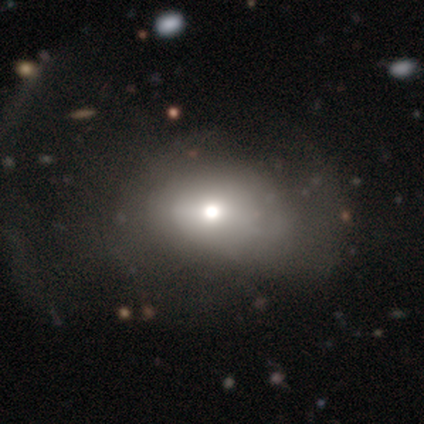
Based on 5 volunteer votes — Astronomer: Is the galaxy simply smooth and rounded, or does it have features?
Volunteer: smooth — 60%.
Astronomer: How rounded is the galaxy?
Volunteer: in between — 67%.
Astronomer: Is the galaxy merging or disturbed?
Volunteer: major disturbance — 50%.